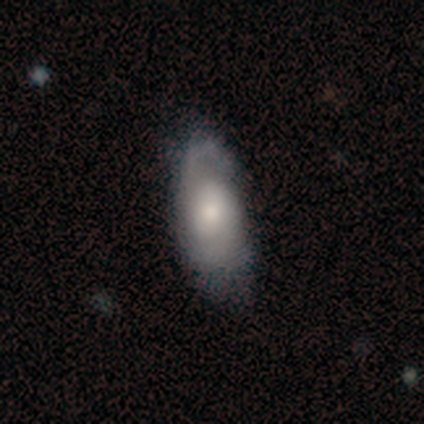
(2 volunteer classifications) smooth-or-featured: smooth: 50% (tied) | featured or disk: 50% (tied) | star or artifact: 0%
  how-rounded: in between: 100% | round: 0% | cigar-shaped: 0%
  merging: minor disturbance: 50% (tied) | major disturbance: 50% (tied) | none: 0% | merger: 0%